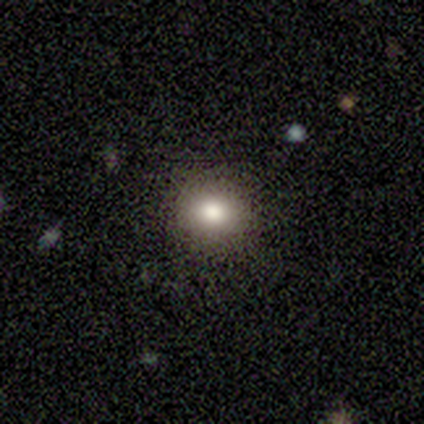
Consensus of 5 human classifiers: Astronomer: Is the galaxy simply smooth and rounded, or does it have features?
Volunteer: smooth — 80%.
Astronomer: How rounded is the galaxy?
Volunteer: round — 75%.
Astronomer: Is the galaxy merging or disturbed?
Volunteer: none — 100%.